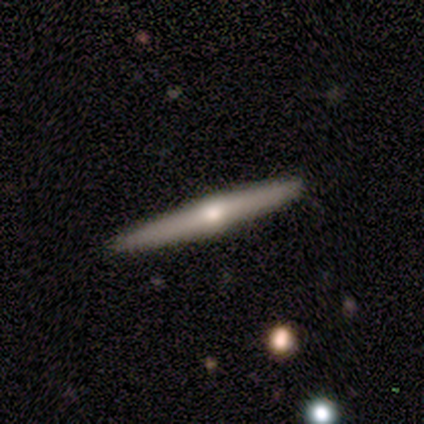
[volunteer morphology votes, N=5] A featured or disk galaxy (80%) viewed edge-on (100%) with a rounded central bulge (100%). Merging: none (100%).